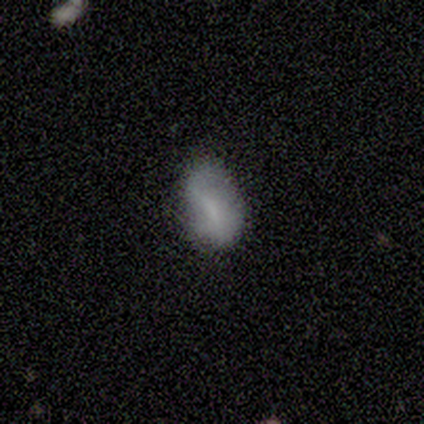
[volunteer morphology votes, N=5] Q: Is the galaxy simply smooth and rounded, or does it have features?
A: smooth — 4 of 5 (80%).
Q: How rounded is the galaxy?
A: in between — 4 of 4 (100%).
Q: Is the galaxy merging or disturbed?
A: minor disturbance — 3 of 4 (75%).